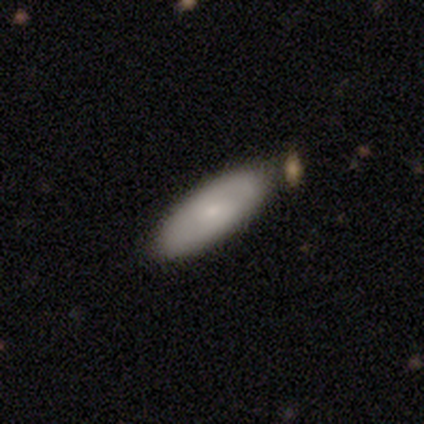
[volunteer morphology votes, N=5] Smooth or featured: smooth — 100%
How rounded: in between — 100%
Merging: none — 100%